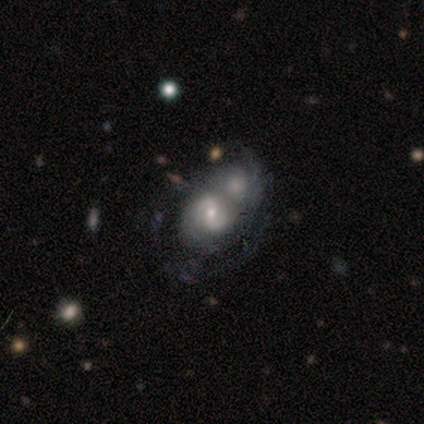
Smooth or featured: featured or disk — 72% (smooth — 22%)
Edge-on disk: no — 100%
Bar: weak — 52% (no — 34%)
Spiral arms: yes — 83% (no — 17%)
Spiral winding: medium — 46% (tight — 42%)
Spiral arm count: 2 — 88% (can't tell — 12%)
Bulge size: small — 55% (moderate — 41%)
Merging: merger — 74% (minor disturbance — 13%)